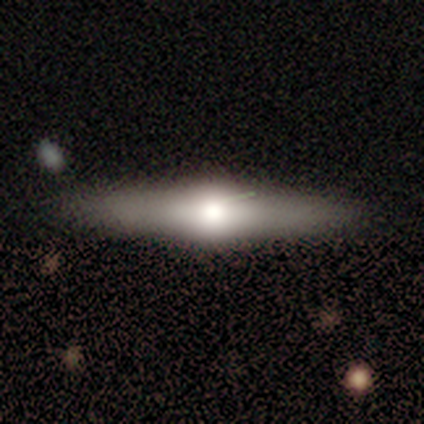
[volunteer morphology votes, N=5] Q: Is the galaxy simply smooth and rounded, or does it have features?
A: featured or disk — 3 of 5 (60%).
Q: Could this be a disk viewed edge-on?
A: yes — 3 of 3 (100%).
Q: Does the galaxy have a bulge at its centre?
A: rounded — 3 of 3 (100%).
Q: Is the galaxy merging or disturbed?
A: none — 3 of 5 (60%).